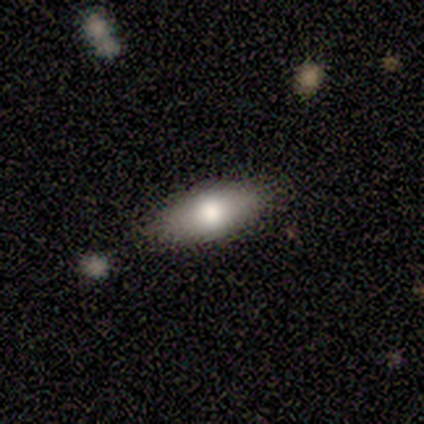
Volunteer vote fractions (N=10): smooth-or-featured: smooth: 80% | featured or disk: 20% | star or artifact: 0%
  how-rounded: in between: 100% | round: 0% | cigar-shaped: 0%
  merging: none: 80% | minor disturbance: 10% | major disturbance: 10% | merger: 0%